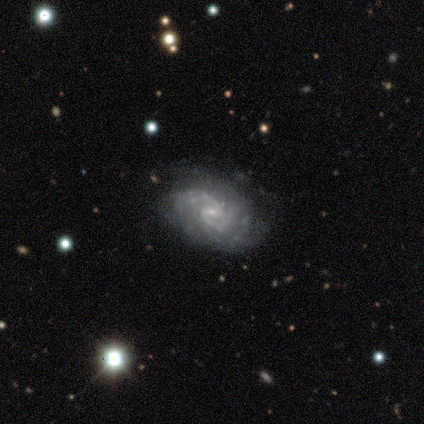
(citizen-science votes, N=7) Smooth or featured?
  - featured or disk: 100% *
  - smooth: 0%
  - star or artifact: 0%
Edge-on disk?
  - no: 100% *
  - yes: 0%
Bar?
  - weak: 43% * (tied)
  - no: 43% * (tied)
  - strong: 14%
Spiral arms?
  - yes: 100% *
  - no: 0%
Spiral winding?
  - medium: 57% *
  - tight: 29%
  - loose: 14%
Spiral arm count?
  - 2: 86% *
  - 3: 14%
  - 1: 0%
  - 4: 0%
  - more than 4: 0%
  - can't tell: 0%
Bulge size?
  - small: 86% *
  - dominant: 14%
  - large: 0%
  - moderate: 0%
  - none: 0%
Merging?
  - none: 100% *
  - minor disturbance: 0%
  - major disturbance: 0%
  - merger: 0%